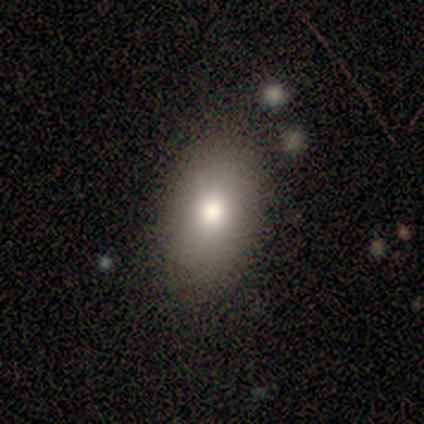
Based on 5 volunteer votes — A smooth galaxy with no disk features (80%) that is in between round and cigar-shaped (100%). Merging: none (75%).